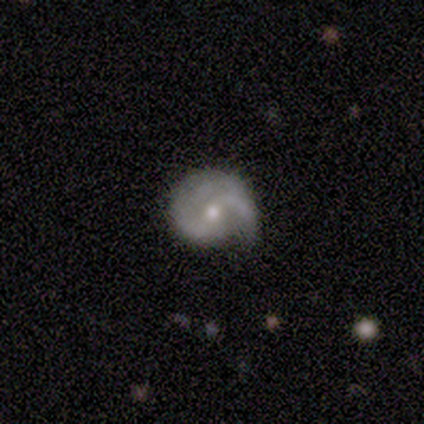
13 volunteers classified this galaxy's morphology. Q: Smooth or featured?
A: featured or disk (77%); runner-up: smooth (15%)
Q: Edge-on disk?
A: no (90%); runner-up: yes (10%)
Q: Bar?
A: no (56%); runner-up: weak (44%)
Q: Spiral arms?
A: yes (89%); runner-up: no (11%)
Q: Spiral winding?
A: tight (38%); tied with: medium (38%)
Q: Spiral arm count?
A: 2 (75%); runner-up: 3 (12%)
Q: Bulge size?
A: small (56%); runner-up: moderate (44%)
Q: Merging?
A: minor disturbance (75%); runner-up: none (17%)